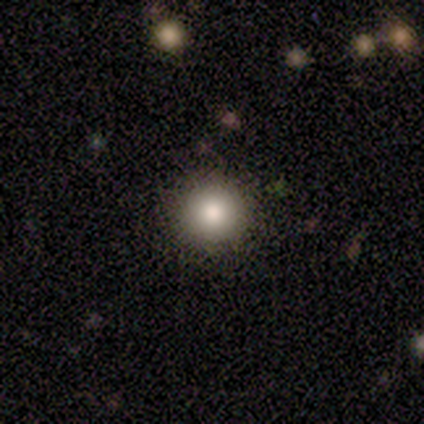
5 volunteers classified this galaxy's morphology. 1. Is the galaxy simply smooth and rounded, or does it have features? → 80% smooth, 20% star or artifact, 0% featured or disk.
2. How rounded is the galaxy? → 100% round, 0% in between, 0% cigar-shaped.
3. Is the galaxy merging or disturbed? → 100% none, 0% minor disturbance, 0% major disturbance, 0% merger.